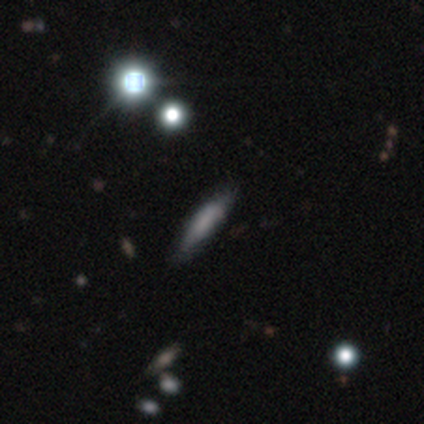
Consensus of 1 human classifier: Smooth or featured? smooth (100%)
How rounded? cigar-shaped (100%)
Merging? none (100%)